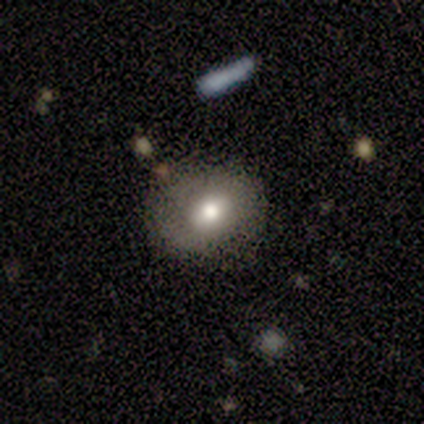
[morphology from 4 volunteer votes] smooth-or-featured: smooth: 75% | featured or disk: 25% | star or artifact: 0%
  how-rounded: round: 67% | in between: 33% | cigar-shaped: 0%
  merging: none: 100% | minor disturbance: 0% | major disturbance: 0% | merger: 0%